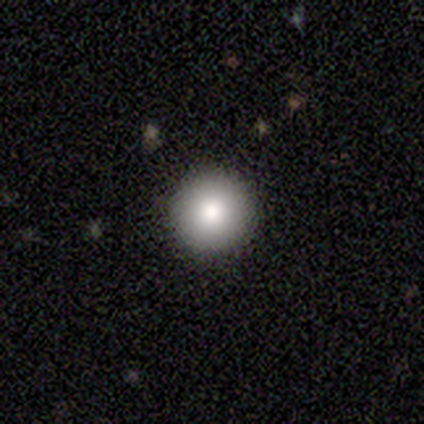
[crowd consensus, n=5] smooth 100%, featured or disk 0%, star or artifact 0%. Down the decision tree: how rounded — round (100%); merging — none (80%).